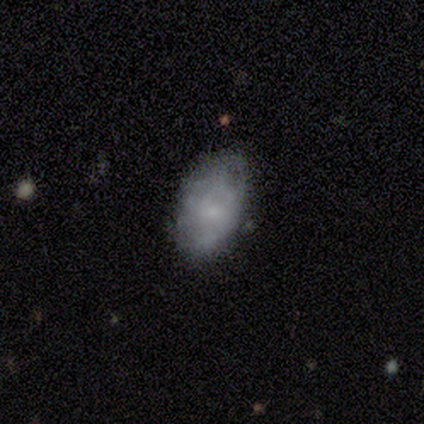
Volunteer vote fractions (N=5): Smooth or featured?
  - smooth: 60% *
  - featured or disk: 40%
  - star or artifact: 0%
How rounded?
  - in between: 100% *
  - round: 0%
  - cigar-shaped: 0%
Merging?
  - none: 80% *
  - minor disturbance: 20%
  - major disturbance: 0%
  - merger: 0%